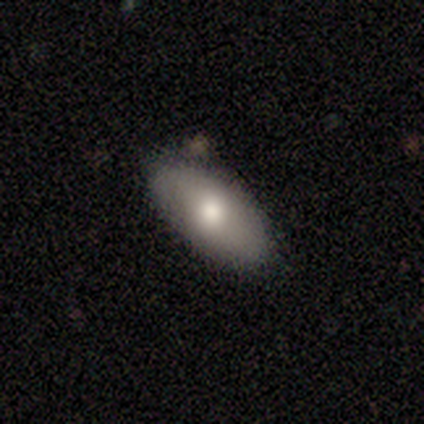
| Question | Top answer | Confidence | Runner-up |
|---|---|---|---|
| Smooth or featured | smooth | 76% | featured or disk (22%) |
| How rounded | in between | 93% | cigar-shaped (7%) |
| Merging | none | 89% | minor disturbance (8%) |